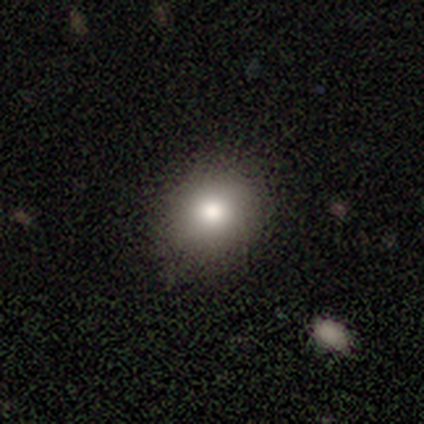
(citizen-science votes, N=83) Smooth or featured? 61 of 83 (73%) said smooth. How rounded? 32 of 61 (52%) said round. Merging? 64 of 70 (91%) said none.